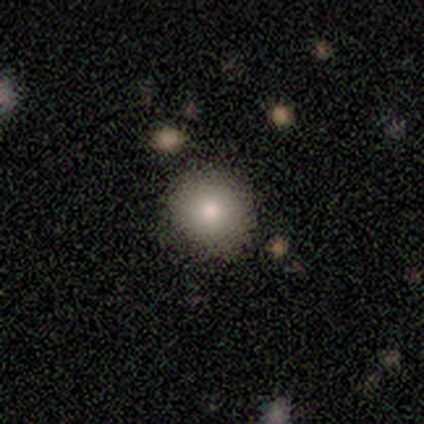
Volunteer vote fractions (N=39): Smooth or featured? 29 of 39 (74%) said smooth. How rounded? 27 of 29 (93%) said round. Merging? 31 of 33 (94%) said none.